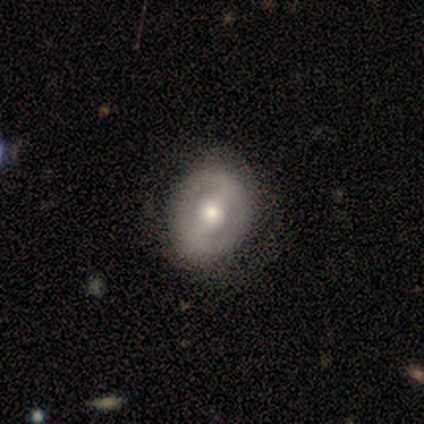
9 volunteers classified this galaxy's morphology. Smooth or featured: featured or disk — 78% (smooth — 22%)
Edge-on disk: no — 86% (yes — 14%)
Bar: strong — 50% (tied with weak — 50%)
Spiral arms: no — 67% (yes — 33%)
Bulge size: moderate — 50% (tied with small — 50%)
Merging: none — 89% (minor disturbance — 11%)